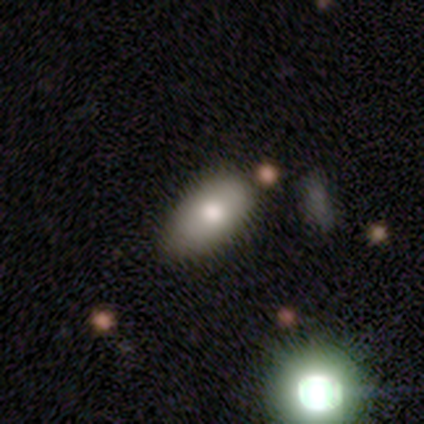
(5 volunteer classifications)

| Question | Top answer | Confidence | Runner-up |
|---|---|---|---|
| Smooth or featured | smooth | 80% | featured or disk (20%) |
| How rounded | in between | 100% | — |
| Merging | none | 60% | minor disturbance (20%) |